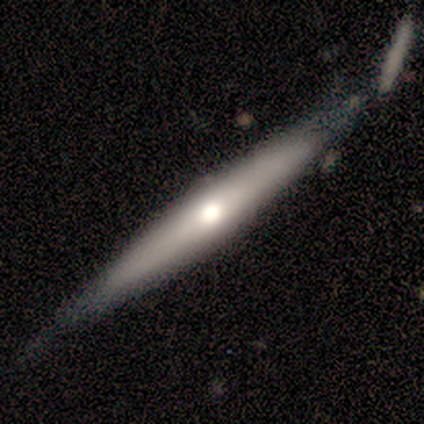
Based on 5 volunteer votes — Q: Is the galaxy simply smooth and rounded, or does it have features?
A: featured or disk — 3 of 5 (60%).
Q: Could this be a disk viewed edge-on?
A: yes — 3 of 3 (100%).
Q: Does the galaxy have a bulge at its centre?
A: none — 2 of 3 (67%).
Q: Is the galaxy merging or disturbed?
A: none — 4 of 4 (100%).